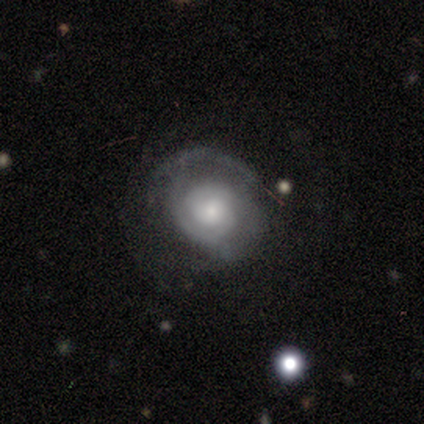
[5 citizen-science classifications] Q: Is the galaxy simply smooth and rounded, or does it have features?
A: smooth — 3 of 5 (60%).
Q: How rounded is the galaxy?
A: round — 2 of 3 (67%).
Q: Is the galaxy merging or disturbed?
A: major disturbance — 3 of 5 (60%).